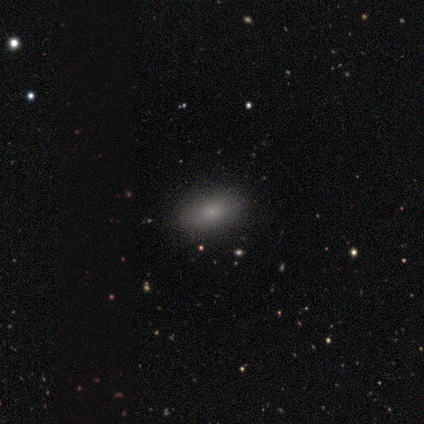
Smooth or featured?
  - smooth: 80% *
  - featured or disk: 20%
  - star or artifact: 0%
How rounded?
  - in between: 100% *
  - round: 0%
  - cigar-shaped: 0%
Merging?
  - none: 80% *
  - minor disturbance: 20%
  - major disturbance: 0%
  - merger: 0%